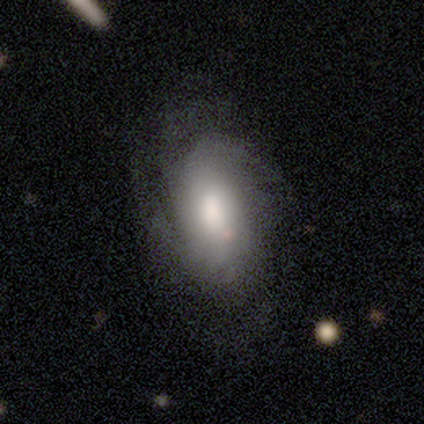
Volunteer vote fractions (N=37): Q: Smooth or featured?
A: featured or disk (70%); runner-up: smooth (27%)
Q: Edge-on disk?
A: no (92%); runner-up: yes (8%)
Q: Bar?
A: no (71%); runner-up: weak (21%)
Q: Spiral arms?
A: yes (88%); runner-up: no (12%)
Q: Spiral winding?
A: medium (43%); runner-up: tight (33%)
Q: Spiral arm count?
A: can't tell (57%); runner-up: 3 (19%)
Q: Bulge size?
A: large (58%); runner-up: moderate (29%)
Q: Merging?
A: none (42%); runner-up: major disturbance (14%)